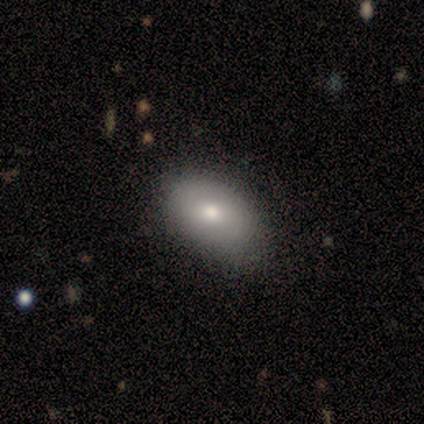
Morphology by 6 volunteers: Smooth or featured?
  - smooth: 83% *
  - star or artifact: 17%
  - featured or disk: 0%
How rounded?
  - in between: 80% *
  - round: 20%
  - cigar-shaped: 0%
Merging?
  - none: 60% *
  - minor disturbance: 40%
  - major disturbance: 0%
  - merger: 0%